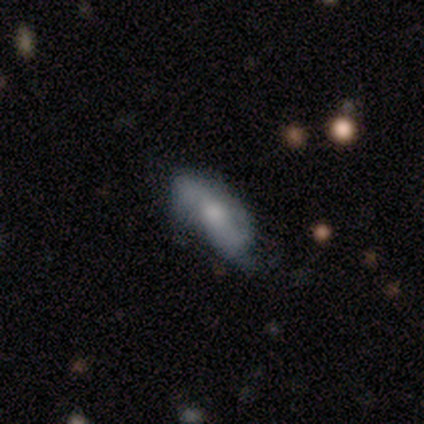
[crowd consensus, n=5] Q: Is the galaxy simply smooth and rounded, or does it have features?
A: smooth — 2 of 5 (40%, tied with featured or disk).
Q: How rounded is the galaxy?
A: in between — 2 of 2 (100%).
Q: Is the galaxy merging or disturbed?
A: none — 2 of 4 (50%, tied with minor disturbance).